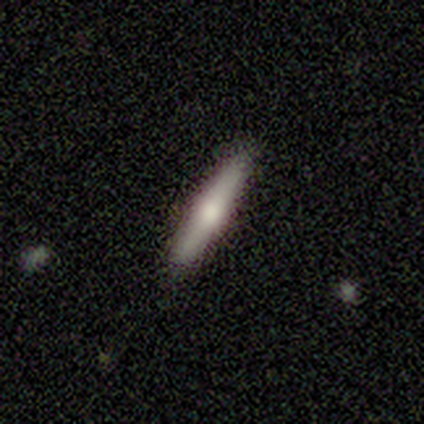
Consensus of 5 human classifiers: Morphology: type=featured or disk (80%); edge-on=yes (100%); edge-on bulge=rounded (75%); merging=none (100%).